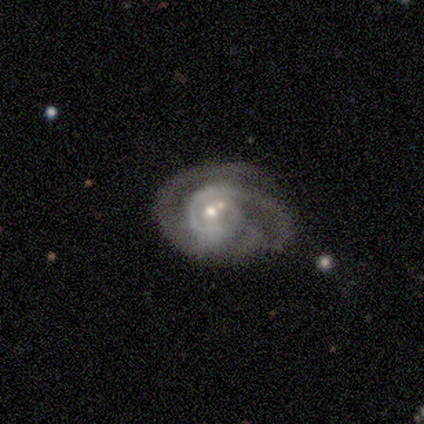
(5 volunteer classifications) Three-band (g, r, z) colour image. It shows a featured or disk galaxy (100%) with no bar (100%), 3 (40%, tied with can't tell) medium (80%) spiral arms (100%) and a moderate central bulge (60%). Merging: merger (60%).